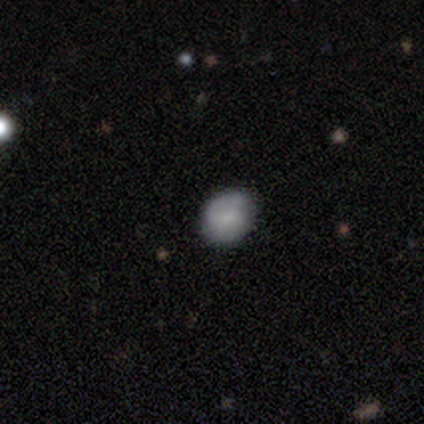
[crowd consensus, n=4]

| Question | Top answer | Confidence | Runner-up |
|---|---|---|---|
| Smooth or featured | smooth | 50% | featured or disk (25%) |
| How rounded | round | 100% | — |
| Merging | none | 100% | — |